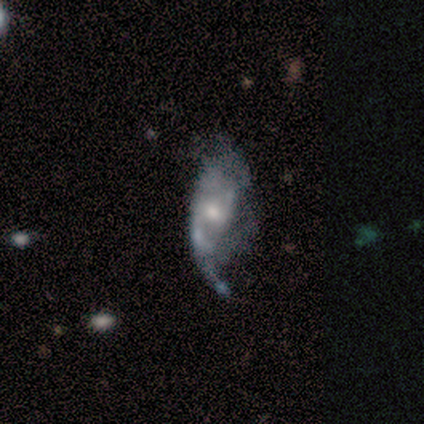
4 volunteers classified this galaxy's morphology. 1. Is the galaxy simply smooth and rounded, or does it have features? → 75% featured or disk, 25% smooth, 0% star or artifact.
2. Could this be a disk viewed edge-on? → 100% no, 0% yes.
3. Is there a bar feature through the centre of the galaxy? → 100% no, 0% strong, 0% weak.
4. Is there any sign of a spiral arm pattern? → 67% yes, 33% no.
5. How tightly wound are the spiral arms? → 100% loose, 0% tight, 0% medium.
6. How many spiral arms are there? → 50% 1 (tied), 50% 2 (tied), 0% 3, 0% 4, 0% more than 4, 0% can't tell.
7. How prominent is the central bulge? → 67% small, 33% moderate, 0% dominant, 0% large, 0% none.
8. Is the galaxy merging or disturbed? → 50% none, 25% minor disturbance, 25% major disturbance, 0% merger.